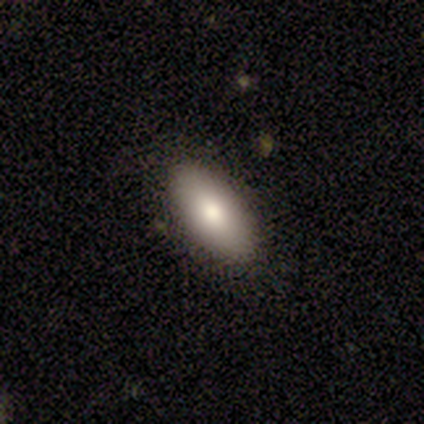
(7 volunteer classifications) A smooth galaxy with no disk features (86%) that is in between round and cigar-shaped (83%). Merging: none (100%).